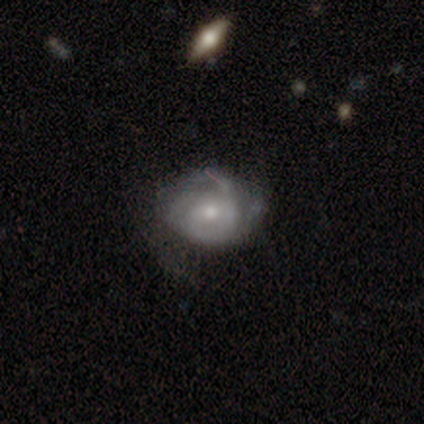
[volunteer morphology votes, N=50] Overall: featured or disk (66%). Edge-on disk: no (97%). Bar: no (72%). Spiral arms: yes (78%). Spiral arm count: can't tell (32%; 3 24%). Spiral winding: tight (64%). Bulge size: small (62%; moderate 28%). Merging: none (46%; minor disturbance 26%).